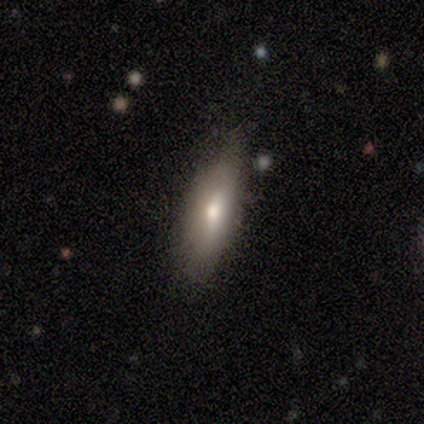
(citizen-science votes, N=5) This is likely a featured or disk galaxy (60%). It is likely not viewed edge-on (67%). Bar: clearly no (100%). Spiral arm pattern: clearly no (100%). Central bulge: clearly moderate (100%). Merging: clearly none (100%).